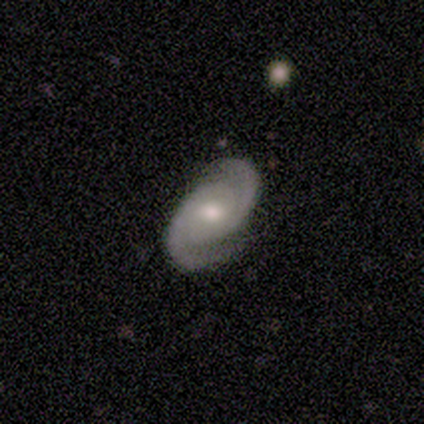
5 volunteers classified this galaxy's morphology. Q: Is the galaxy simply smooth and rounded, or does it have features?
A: featured or disk — 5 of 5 (100%).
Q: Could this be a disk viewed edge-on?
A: no — 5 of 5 (100%).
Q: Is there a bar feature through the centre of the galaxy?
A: weak — 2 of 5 (40%, tied with no).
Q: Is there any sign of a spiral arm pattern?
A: yes — 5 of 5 (100%).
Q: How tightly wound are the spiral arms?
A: medium — 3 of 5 (60%).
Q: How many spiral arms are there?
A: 2 — 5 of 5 (100%).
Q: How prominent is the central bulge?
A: moderate — 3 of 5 (60%).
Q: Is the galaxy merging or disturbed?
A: none — 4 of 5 (80%).